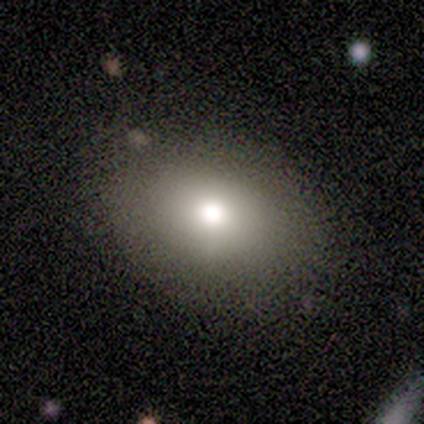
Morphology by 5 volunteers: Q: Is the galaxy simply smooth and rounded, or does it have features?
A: smooth — 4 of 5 (80%).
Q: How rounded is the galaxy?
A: round — 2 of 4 (50%, tied with in between).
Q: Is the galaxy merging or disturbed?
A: none — 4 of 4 (100%).